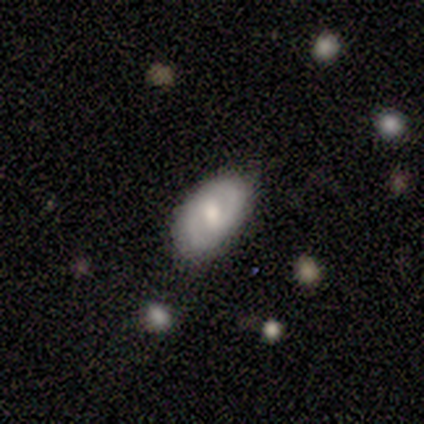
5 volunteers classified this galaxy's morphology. Smooth or featured? 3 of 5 (60%) said smooth. How rounded? 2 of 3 (67%) said in between. Merging? 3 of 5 (60%) said none.